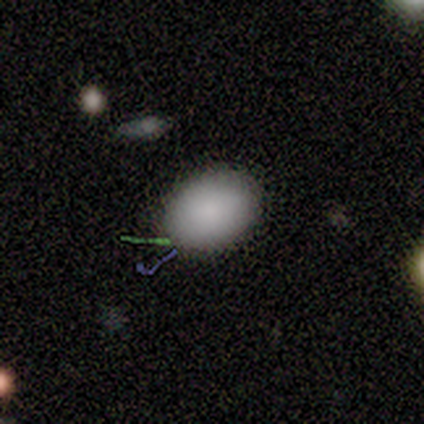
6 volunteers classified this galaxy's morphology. Overall: smooth (83%). How rounded: in between (80%). Merging: none (80%).